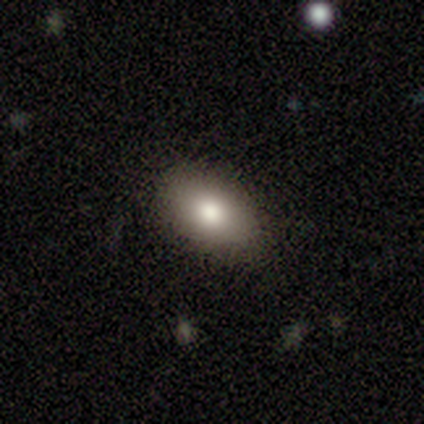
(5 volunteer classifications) Morphology: type=smooth (80%); roundness=in between (100%); merging=none (100%).